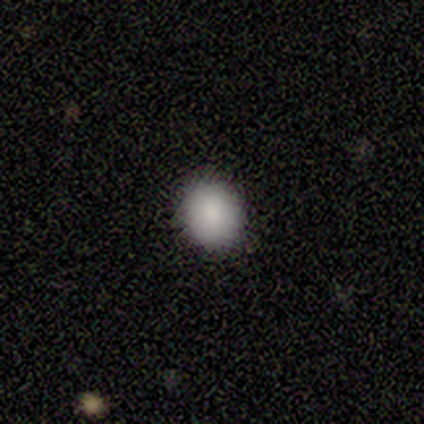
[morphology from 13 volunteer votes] A smooth galaxy with no disk features (92%) that is round (92%).

Vote fractions:
- Smooth or featured? smooth: 92% / star or artifact: 8% / featured or disk: 0%
- How rounded? round: 92% / in between: 8% / cigar-shaped: 0%
- Merging? none: 100% / minor disturbance: 0% / major disturbance: 0% / merger: 0%